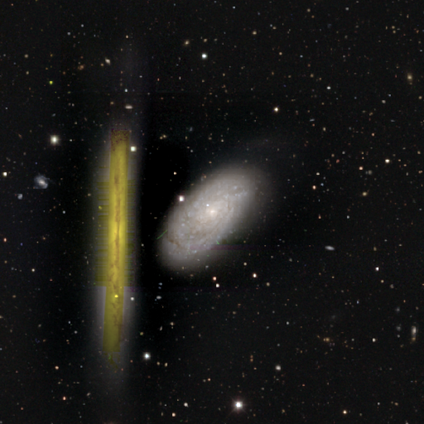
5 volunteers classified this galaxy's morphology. Overall: featured or disk (80%). Edge-on disk: no (75%). Bar: no (67%; weak 33%). Spiral arms: yes (100%). Spiral arm count: can't tell (100%). Spiral winding: tight (67%; medium 33%). Bulge size: small (100%). Merging: none (100%).